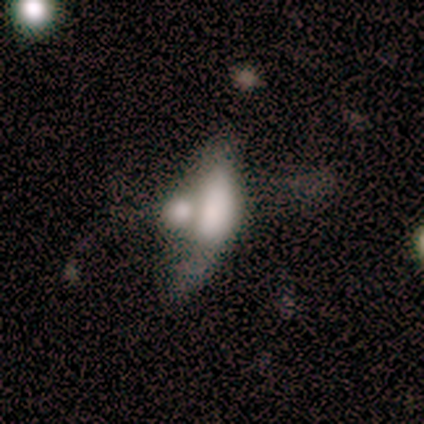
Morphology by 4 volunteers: type=smooth (50%); roundness=in between (50%, tied with cigar-shaped); merging=merger (67%).